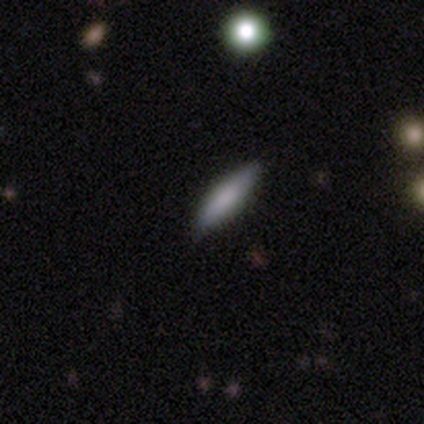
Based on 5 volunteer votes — Smooth or featured? 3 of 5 (60%) said featured or disk. Edge-on disk? 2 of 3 (67%) said yes. Edge-on bulge? 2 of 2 (100%) said boxy. Merging? 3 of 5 (60%) said none.